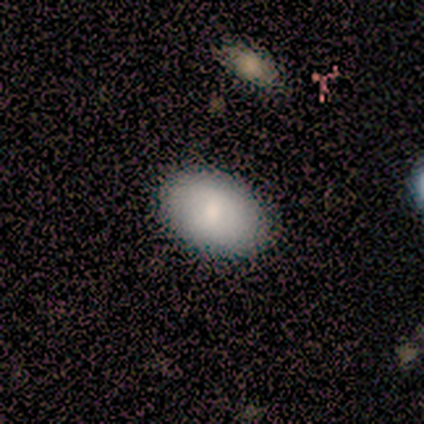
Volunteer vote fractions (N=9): Smooth or featured: smooth — 78% (featured or disk — 22%)
How rounded: in between — 71% (round — 29%)
Merging: none — 100%